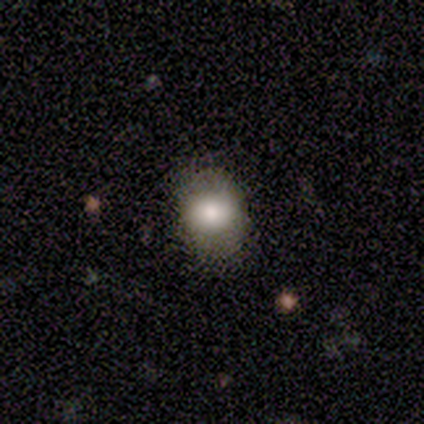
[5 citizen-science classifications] Smooth or featured: smooth — 80% (featured or disk — 20%)
How rounded: in between — 100%
Merging: none — 80% (major disturbance — 20%)